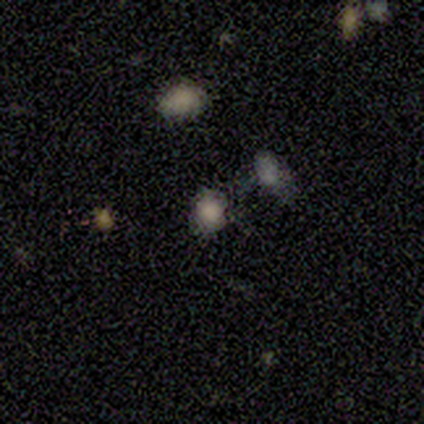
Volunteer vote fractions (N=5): Smooth or featured?
  - smooth: 60% *
  - featured or disk: 20%
  - star or artifact: 20%
How rounded?
  - round: 67% *
  - in between: 33%
  - cigar-shaped: 0%
Merging?
  - none: 50% *
  - minor disturbance: 25%
  - merger: 25%
  - major disturbance: 0%